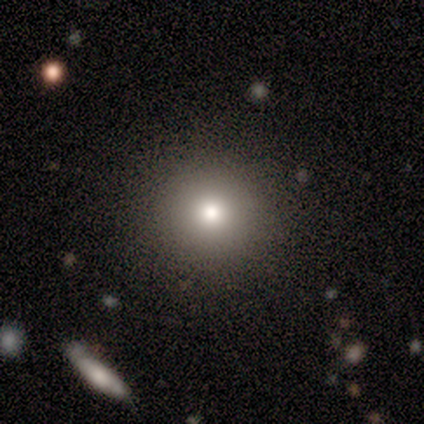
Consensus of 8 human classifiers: Volunteers were most divided on "smooth or featured": smooth: 50%, star or artifact: 38%, featured or disk: 12%. More confident: how rounded — round (100%); merging — none (100%).